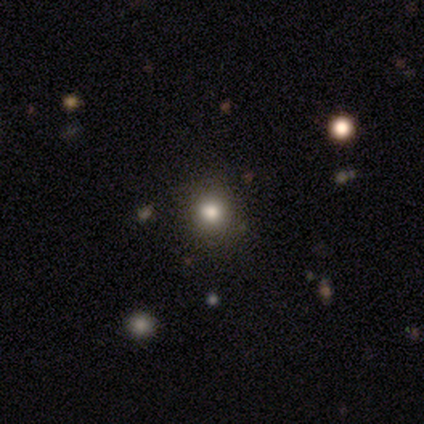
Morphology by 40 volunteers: Q: Smooth or featured?
A: smooth (78%); runner-up: star or artifact (18%)
Q: How rounded?
A: round (94%); runner-up: in between (6%)
Q: Merging?
A: none (61%); runner-up: minor disturbance (6%)